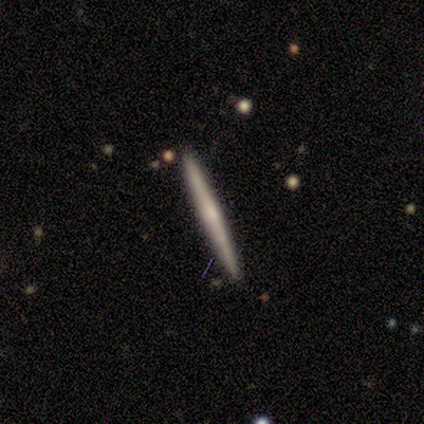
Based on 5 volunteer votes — Q: Smooth or featured?
A: featured or disk (60%); runner-up: smooth (40%)
Q: Edge-on disk?
A: yes (100%)
Q: Edge-on bulge?
A: none (67%); runner-up: rounded (33%)
Q: Merging?
A: none (80%); runner-up: minor disturbance (20%)